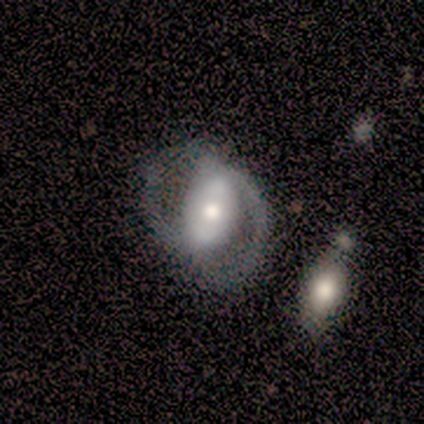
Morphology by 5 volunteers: A featured or disk galaxy (60%) with no bar (100%), 2 (100%) medium (100%) spiral arms (67%) and a moderate central bulge (100%). Merging: none (75%).